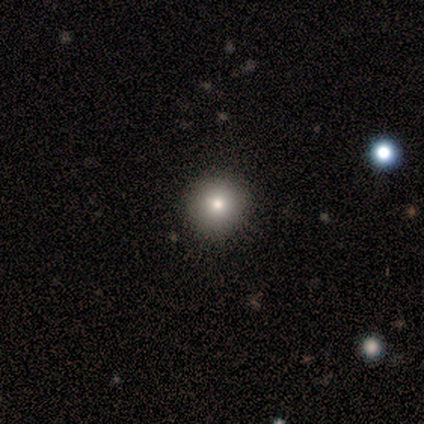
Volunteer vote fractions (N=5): Morphology: type=smooth (80%); roundness=round (100%); merging=none (100%).